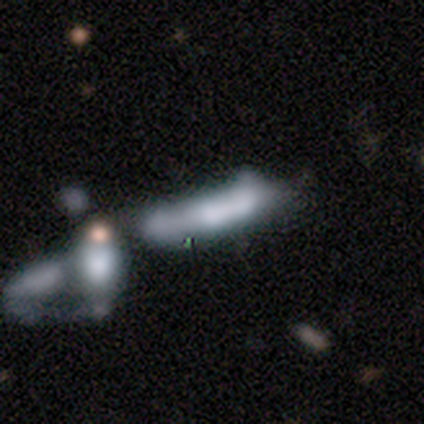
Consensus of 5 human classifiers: Q: Smooth or featured?
A: smooth (80%); runner-up: star or artifact (20%)
Q: How rounded?
A: cigar-shaped (100%)
Q: Merging?
A: merger (50%); runner-up: none (25%)